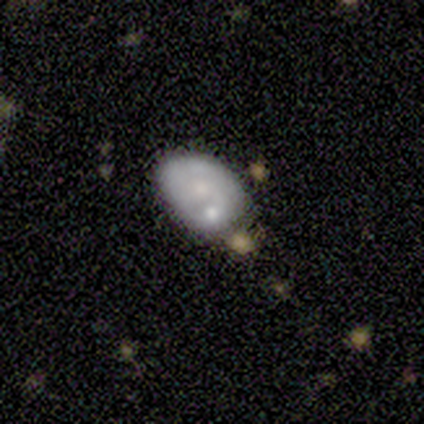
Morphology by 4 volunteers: type=smooth (50%, tied with featured or disk); roundness=in between (100%); merging=minor disturbance (50%).